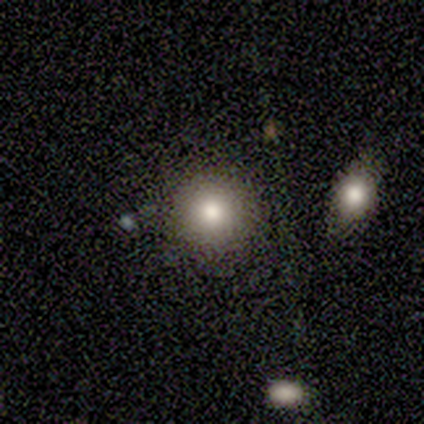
Volunteers were most divided on "smooth or featured": smooth: 73%, featured or disk: 20%, star or artifact: 7%. More confident: how rounded — round (91%); merging — none (86%).